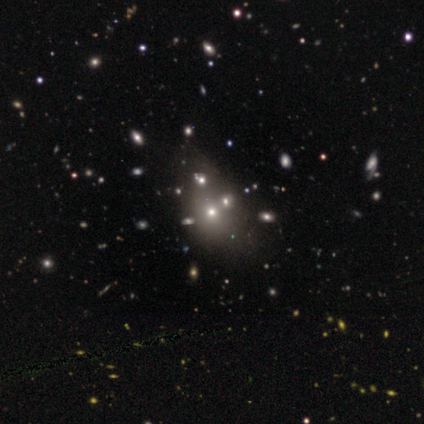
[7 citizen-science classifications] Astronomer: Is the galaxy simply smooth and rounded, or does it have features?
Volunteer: smooth — 86%.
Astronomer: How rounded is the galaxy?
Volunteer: in between — 67%.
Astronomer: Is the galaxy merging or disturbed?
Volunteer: none — 71%.